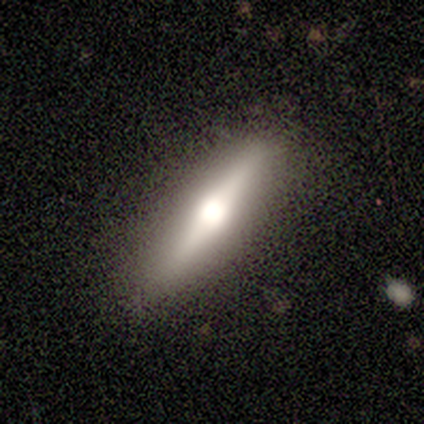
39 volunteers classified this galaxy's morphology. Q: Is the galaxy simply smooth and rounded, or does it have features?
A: featured or disk — 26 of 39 (67%).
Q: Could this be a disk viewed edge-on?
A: yes — 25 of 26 (96%).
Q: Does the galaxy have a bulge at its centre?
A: rounded — 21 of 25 (84%).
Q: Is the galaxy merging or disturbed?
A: none — 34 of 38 (89%).